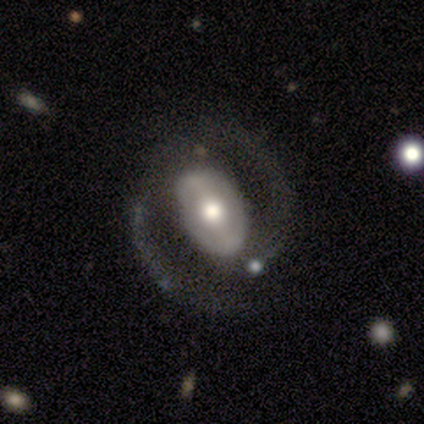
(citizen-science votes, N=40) Volunteers were most divided on "merging": none: 44%, major disturbance: 36%, minor disturbance: 18%, merger: 3%. Remaining: edge-on disk — no (96%); spiral arm count — 2 (93%); spiral winding — medium (67%); smooth or featured — featured or disk (65%); spiral arms — yes (60%); bulge size — moderate (48%); bar — weak (48%).